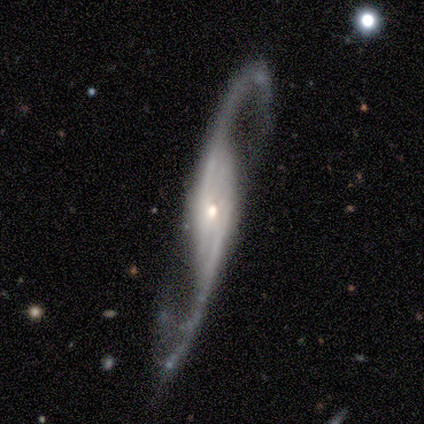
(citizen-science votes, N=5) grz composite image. It shows a featured or disk galaxy (100%) with a strong bar (33%, tied with weak and no), 2 (100%) loose (100%) spiral arms (100%) and a small central bulge (100%). Merging: none (80%).